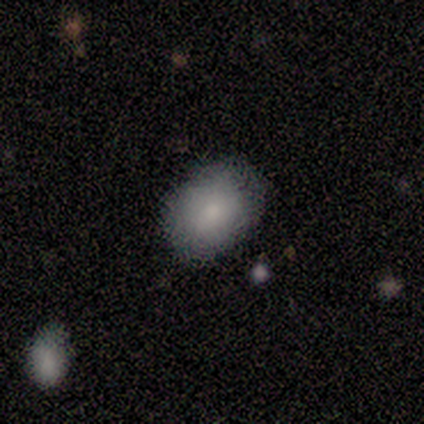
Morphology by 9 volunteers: A smooth galaxy with no disk features (78%) that is in between round and cigar-shaped (100%). Merging: none (89%).